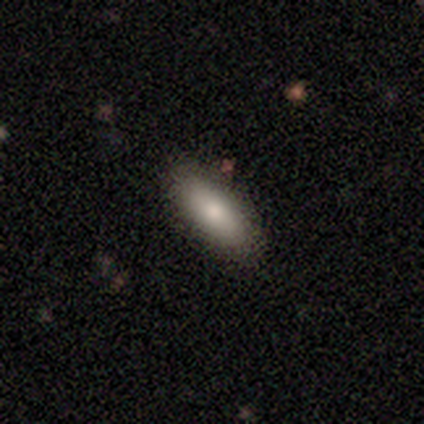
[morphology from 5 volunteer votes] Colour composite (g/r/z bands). It shows a smooth galaxy with no disk features (100%) that is in between round and cigar-shaped (80%). Merging: none (80%).